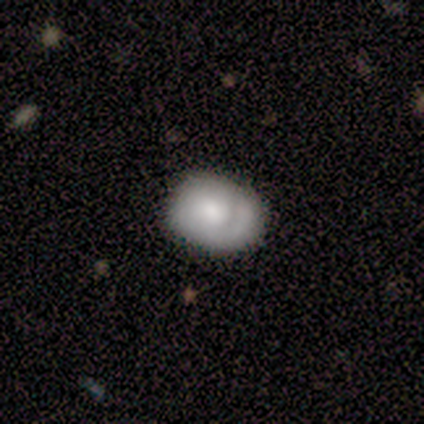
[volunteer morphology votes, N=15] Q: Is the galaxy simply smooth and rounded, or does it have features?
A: smooth — 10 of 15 (67%).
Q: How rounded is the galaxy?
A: round — 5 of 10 (50%, tied with in between).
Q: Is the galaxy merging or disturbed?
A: none — 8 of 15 (53%).